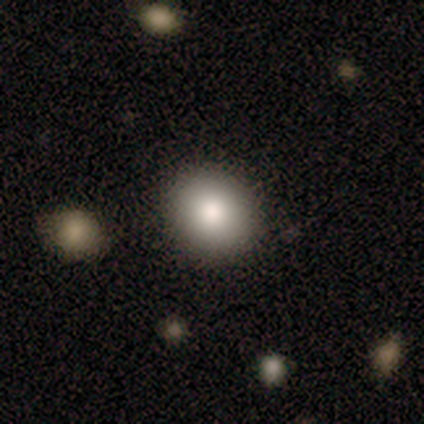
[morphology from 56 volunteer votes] smooth_or_featured: smooth (p=0.75) [alt: featured or disk p=0.16]
how_rounded: round (p=0.69) [alt: in between p=0.31]
merging: none (p=0.88) [alt: minor disturbance p=0.06]